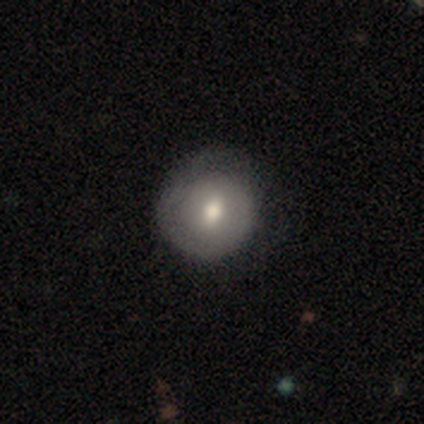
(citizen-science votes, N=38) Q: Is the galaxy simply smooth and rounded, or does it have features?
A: smooth — 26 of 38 (68%).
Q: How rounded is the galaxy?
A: round — 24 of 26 (92%).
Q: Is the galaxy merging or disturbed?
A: none — 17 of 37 (46%).